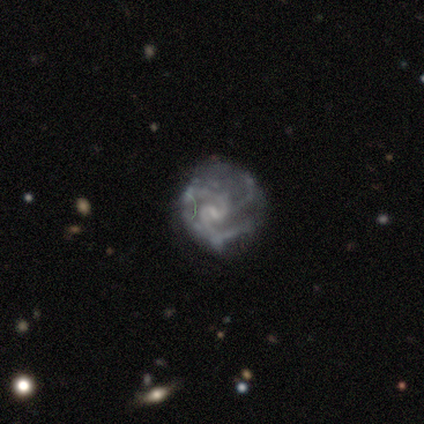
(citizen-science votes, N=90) smooth_or_featured: featured or disk (p=0.76) [alt: star or artifact p=0.14]
disk_edge_on: no (p=0.99) [alt: yes p=0.01]
bar: weak (p=0.60) [alt: no p=0.33]
has_spiral_arms: yes (p=0.88) [alt: no p=0.12]
spiral_winding: medium (p=0.58) [alt: tight p=0.32]
spiral_arm_count: 3 (p=0.49) [alt: 2 p=0.34]
bulge_size: small (p=0.66) [alt: none p=0.24]
merging: none (p=0.49) [alt: major disturbance p=0.26]